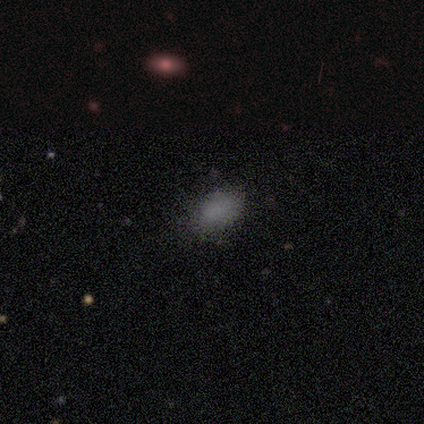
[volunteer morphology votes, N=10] Volunteers were most divided on "merging": none: 60%, minor disturbance: 40%, major disturbance: 0%, merger: 0%. More confident: smooth or featured — smooth (100%); how rounded — in between (70%).